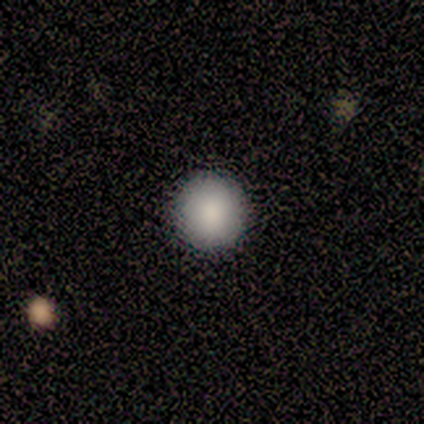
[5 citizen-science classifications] A smooth galaxy with no disk features (100%) that is round (100%).

Vote fractions:
- Smooth or featured? smooth: 100% / featured or disk: 0% / star or artifact: 0%
- How rounded? round: 100% / in between: 0% / cigar-shaped: 0%
- Merging? none: 100% / minor disturbance: 0% / major disturbance: 0% / merger: 0%